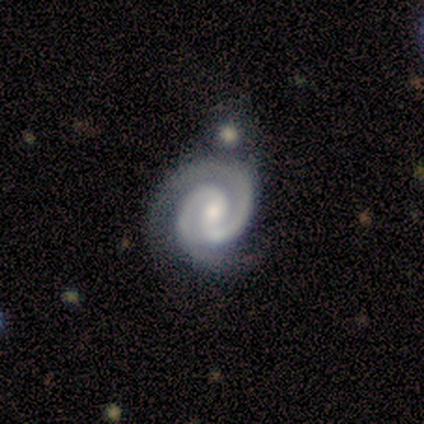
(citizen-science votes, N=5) featured or disk 100%, smooth 0%, star or artifact 0%. Down the decision tree: edge-on disk — no (100%); bar — weak (80%); spiral arms — yes (100%); spiral arm count — 2 (100%); spiral winding — tight (100%); bulge size — small (80%); merging — none (80%).